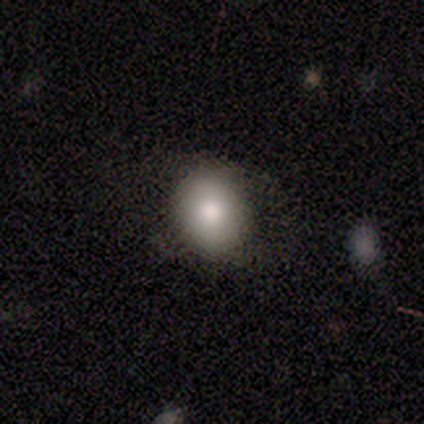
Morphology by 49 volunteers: smooth_or_featured: smooth (p=0.84) [alt: featured or disk p=0.16]
how_rounded: round (p=0.59) [alt: in between p=0.41]
merging: none (p=0.78) [alt: minor disturbance p=0.14]